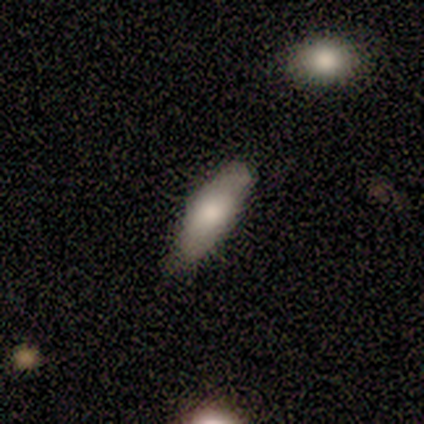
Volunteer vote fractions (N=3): This appears to be a smooth galaxy with no disk features (67%) that is cigar-shaped (100%). Merging: none (100%).